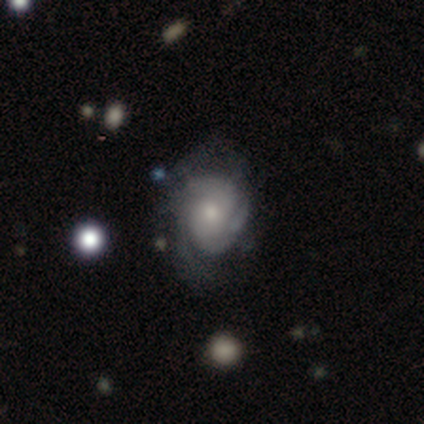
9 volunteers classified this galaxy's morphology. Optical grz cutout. It shows a featured or disk galaxy (78%) with no bar (71%), 3 (33%, tied with can't tell) tight (50%, tied with medium) spiral arms (86%) and a moderate central bulge (43%, tied with small). Merging: minor disturbance (50%).